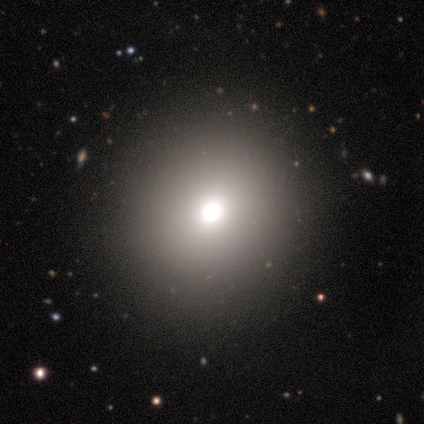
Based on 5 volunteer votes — Smooth or featured? 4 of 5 (80%) said smooth. How rounded? 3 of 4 (75%) said round. Merging? 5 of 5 (100%) said none.